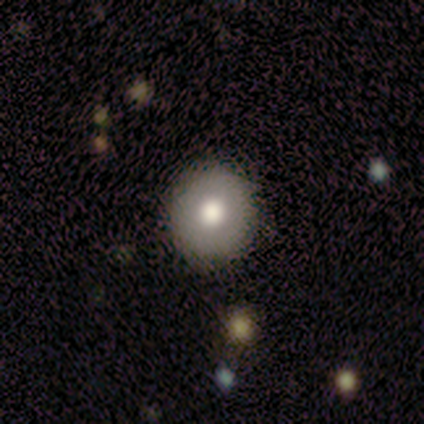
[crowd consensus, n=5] Volunteers were most divided on "how rounded": round: 75%, in between: 25%, cigar-shaped: 0%. More confident: smooth or featured — smooth (80%); merging — none (80%).